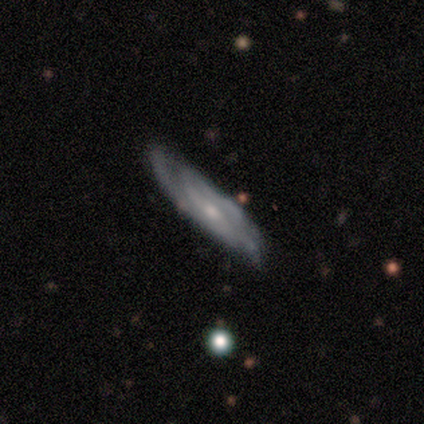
smooth-or-featured: featured or disk: 75% | smooth: 25% | star or artifact: 0%
  disk-edge-on: no: 100% | yes: 0%
    bar: no: 67% | strong: 33% | weak: 0%
    has-spiral-arms: yes: 67% | no: 33%
      spiral-winding: tight: 100% | medium: 0% | loose: 0%
      spiral-arm-count: 2: 50% (tied) | can't tell: 50% (tied) | 1: 0% | 3: 0% | 4: 0% | more than 4: 0%
    bulge-size: small: 100% | dominant: 0% | large: 0% | moderate: 0% | none: 0%
  merging: none: 75% | minor disturbance: 25% | major disturbance: 0% | merger: 0%